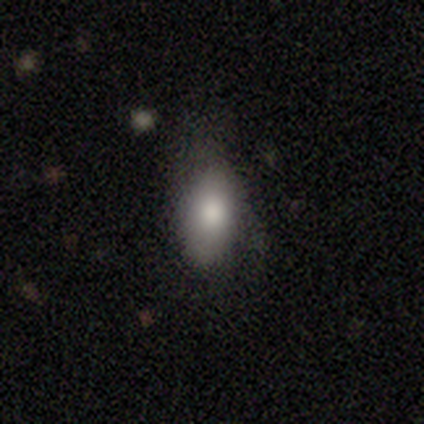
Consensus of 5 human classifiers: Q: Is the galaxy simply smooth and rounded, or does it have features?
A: smooth — 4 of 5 (80%).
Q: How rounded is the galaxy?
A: in between — 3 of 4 (75%).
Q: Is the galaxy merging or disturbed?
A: none — 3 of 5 (60%).